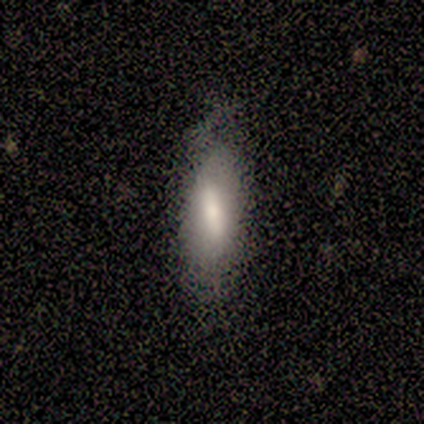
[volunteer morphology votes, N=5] smooth 60%, featured or disk 20%, star or artifact 20%. Down the decision tree: how rounded — in between (67%); merging — none (50%).